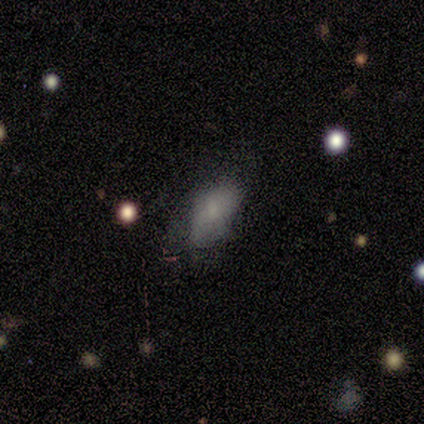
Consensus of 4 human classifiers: Smooth or featured? smooth (75%)
How rounded? in between (100%)
Merging? none (67%)